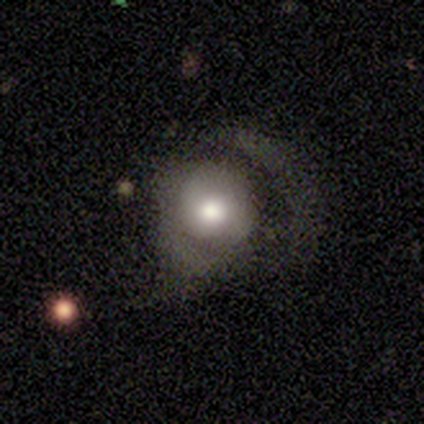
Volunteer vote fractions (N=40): Smooth or featured: smooth — 65% (featured or disk — 28%)
How rounded: round — 85% (in between — 15%)
Merging: major disturbance — 49% (none — 32%)